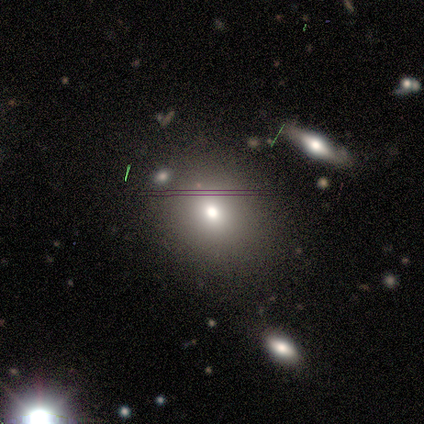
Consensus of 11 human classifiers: Morphology: type=smooth (82%); roundness=in between (56%); merging=none (67%).